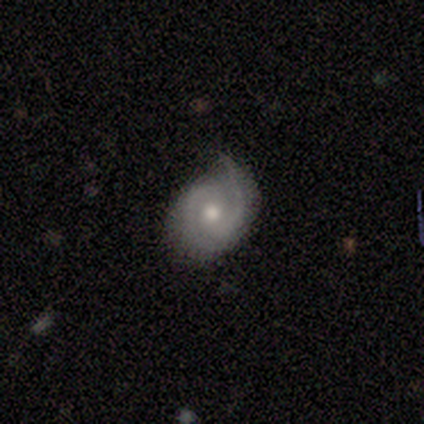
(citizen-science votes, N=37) smooth-or-featured: featured or disk: 95% | smooth: 5% | star or artifact: 0%
  disk-edge-on: no: 97% | yes: 3%
    bar: no: 68% | weak: 26% | strong: 6%
    has-spiral-arms: yes: 94% | no: 6%
      spiral-winding: medium: 47% | tight: 41% | loose: 12%
      spiral-arm-count: 2: 84% | 1: 9% | 4: 3% | can't tell: 3% | 3: 0% | more than 4: 0%
    bulge-size: moderate: 76% | small: 21% | large: 3% | dominant: 0% | none: 0%
  merging: none: 70% | minor disturbance: 22% | major disturbance: 8% | merger: 0%